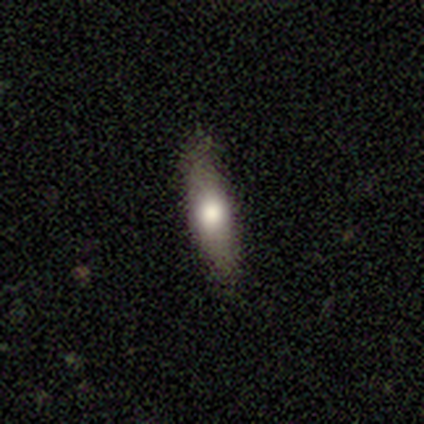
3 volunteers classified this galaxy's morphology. Smooth or featured? smooth (67%)
How rounded? cigar-shaped (100%)
Merging? none (100%)